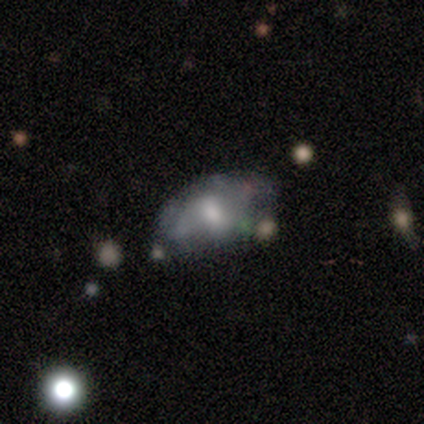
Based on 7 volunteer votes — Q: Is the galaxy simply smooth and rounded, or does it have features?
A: featured or disk — 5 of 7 (71%).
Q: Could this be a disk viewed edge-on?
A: no — 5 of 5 (100%).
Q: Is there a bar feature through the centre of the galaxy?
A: no — 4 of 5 (80%).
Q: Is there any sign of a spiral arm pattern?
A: no — 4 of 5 (80%).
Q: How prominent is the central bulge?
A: moderate — 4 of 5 (80%).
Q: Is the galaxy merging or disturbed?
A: none — 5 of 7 (71%).